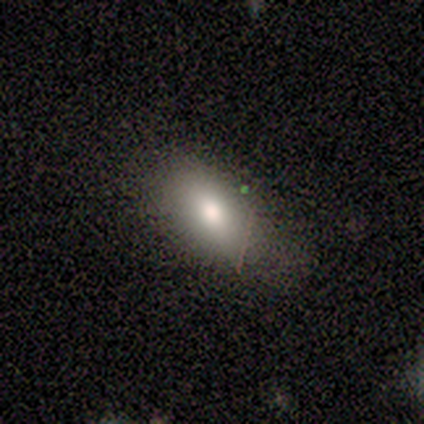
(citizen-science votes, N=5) Volunteers were most divided on "merging": none: 60%, minor disturbance: 40%, major disturbance: 0%, merger: 0%. More confident: smooth or featured — smooth (100%); how rounded — in between (80%).